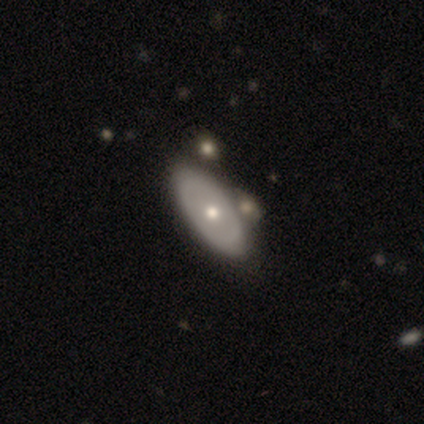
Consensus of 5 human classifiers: A featured or disk galaxy (80%) with no bar (100%), no spiral arms (100%) and a moderate central bulge (100%).

Vote fractions:
- Smooth or featured? featured or disk: 80% / smooth: 20% / star or artifact: 0%
- Edge-on disk? no: 100% / yes: 0%
- Bar? no: 100% / strong: 0% / weak: 0%
- Spiral arms? no: 100% / yes: 0%
- Bulge size? moderate: 100% / dominant: 0% / large: 0% / small: 0% / none: 0%
- Merging? none: 100% / minor disturbance: 0% / major disturbance: 0% / merger: 0%